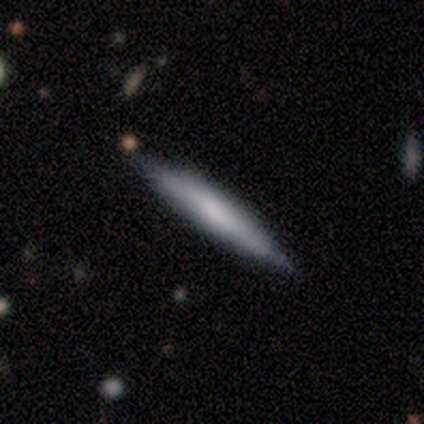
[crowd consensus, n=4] Smooth or featured: smooth — 100%
How rounded: cigar-shaped — 100%
Merging: none — 100%